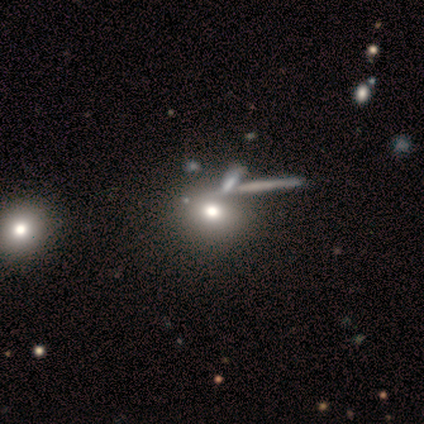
Smooth or featured? star or artifact (60%)